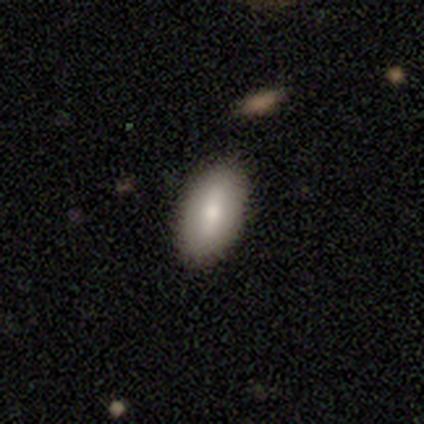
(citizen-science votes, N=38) Morphology: type=smooth (66%); roundness=in between (92%); merging=none (97%).